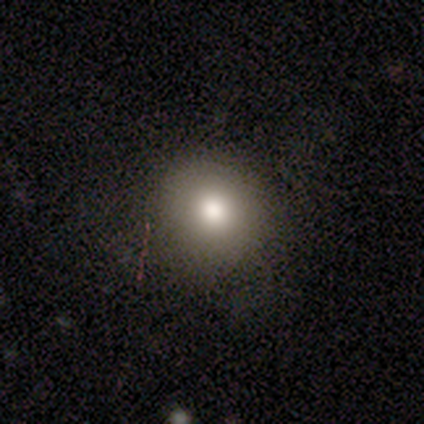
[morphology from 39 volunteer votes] This appears to be a smooth galaxy with no disk features (74%) that is round (97%). Merging: none (86%).